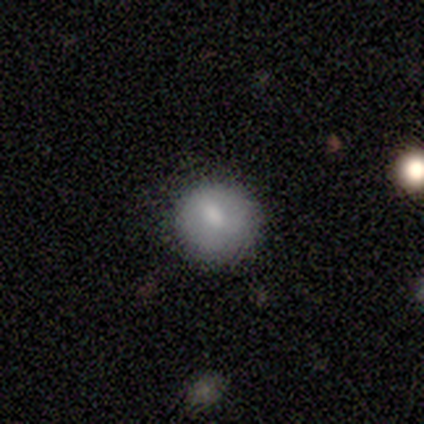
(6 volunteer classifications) smooth_or_featured: smooth (p=0.83) [alt: featured or disk p=0.17]
how_rounded: round (p=1.00)
merging: none (p=1.00)